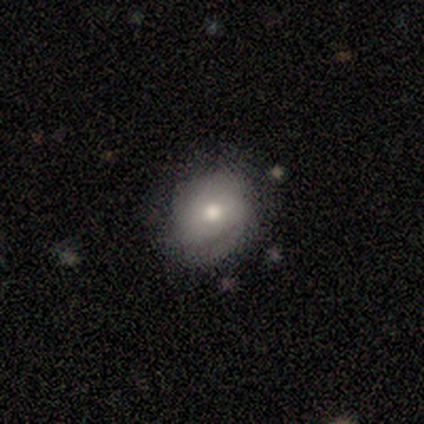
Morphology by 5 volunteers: Volunteers were most divided on "smooth or featured": smooth: 60%, featured or disk: 40%, star or artifact: 0%. More confident: how rounded — in between (100%); merging — none (60%).